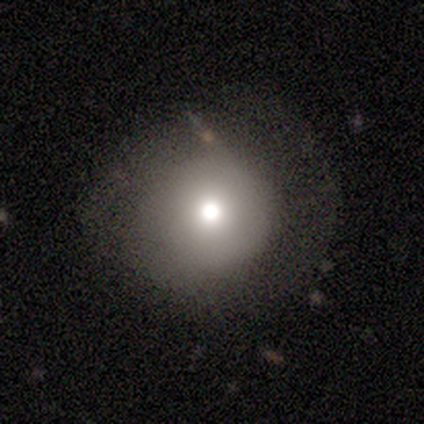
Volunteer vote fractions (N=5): Q: Smooth or featured?
A: smooth (80%); runner-up: star or artifact (20%)
Q: How rounded?
A: round (75%); runner-up: in between (25%)
Q: Merging?
A: major disturbance (50%); runner-up: none (25%)